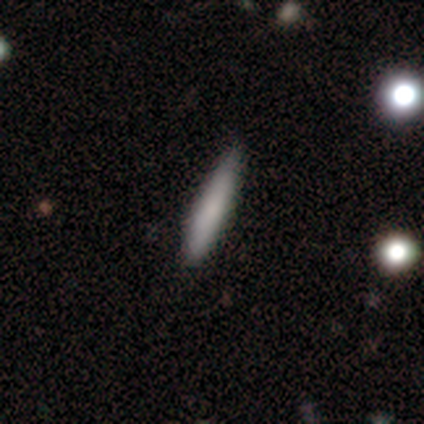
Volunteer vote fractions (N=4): smooth_or_featured: smooth (p=1.00)
how_rounded: cigar-shaped (p=1.00)
merging: none (p=1.00)